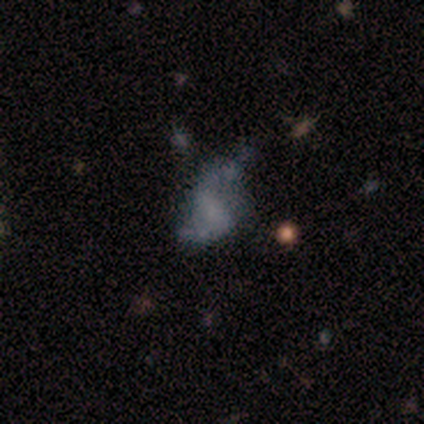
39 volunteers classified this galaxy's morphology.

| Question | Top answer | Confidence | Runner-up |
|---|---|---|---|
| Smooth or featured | featured or disk | 56% | smooth (28%) |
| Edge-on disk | no | 100% | — |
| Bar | no | 45% | strong (27%) |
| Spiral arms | yes | 59% | no (41%) |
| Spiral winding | loose | 92% | medium (8%) |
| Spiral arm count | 2 | 85% | 1 (8%) |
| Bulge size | none | 64% | small (36%) |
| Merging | none | 36% | minor disturbance (30%) |